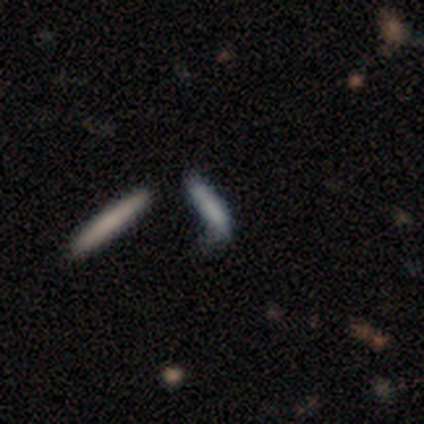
A smooth galaxy with no disk features (90%) that is cigar-shaped (89%). Merging: none (60%).